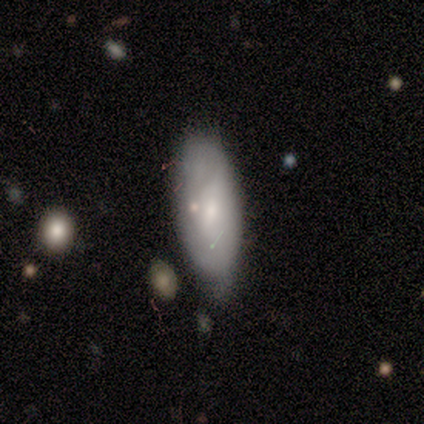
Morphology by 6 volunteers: This is likely a smooth galaxy (67%). How rounded: likely in between (75%). Merging: possibly none (50%, tied with minor disturbance).